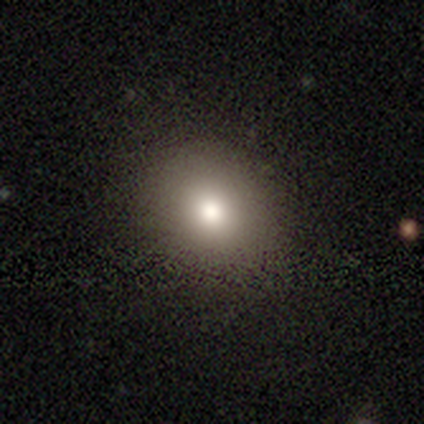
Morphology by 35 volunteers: This is likely a smooth galaxy (74%). How rounded: clearly round (85%). Merging: clearly none (86%).